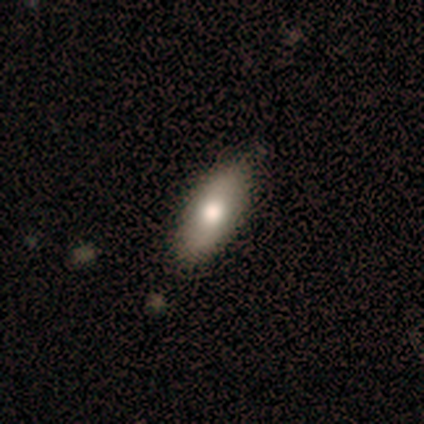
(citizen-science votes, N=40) Overall: smooth (72%). How rounded: in between (90%). Merging: none (89%).